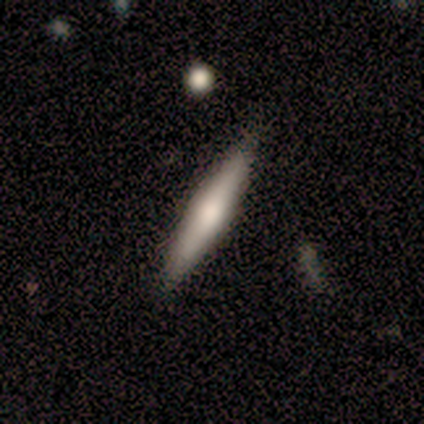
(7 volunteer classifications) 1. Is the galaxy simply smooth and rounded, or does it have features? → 71% featured or disk, 29% smooth, 0% star or artifact.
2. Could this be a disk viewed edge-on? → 100% yes, 0% no.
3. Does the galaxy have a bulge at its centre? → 60% none, 40% rounded, 0% boxy.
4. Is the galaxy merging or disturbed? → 100% none, 0% minor disturbance, 0% major disturbance, 0% merger.